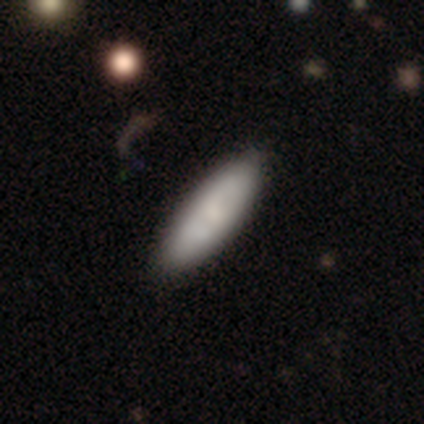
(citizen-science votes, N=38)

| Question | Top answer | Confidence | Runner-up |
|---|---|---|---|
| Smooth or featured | smooth | 68% | featured or disk (26%) |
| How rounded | in between | 65% | cigar-shaped (35%) |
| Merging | none | 53% | merger (11%) |